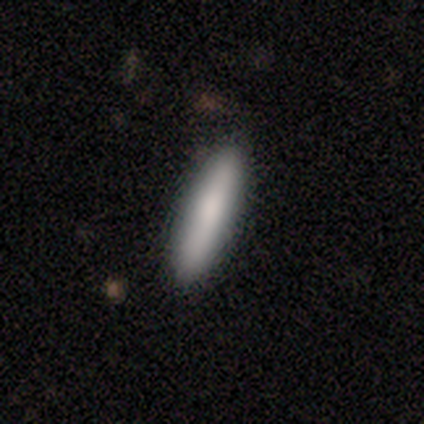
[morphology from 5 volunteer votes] Q: Smooth or featured?
A: smooth (100%)
Q: How rounded?
A: cigar-shaped (80%); runner-up: in between (20%)
Q: Merging?
A: none (80%); runner-up: major disturbance (20%)